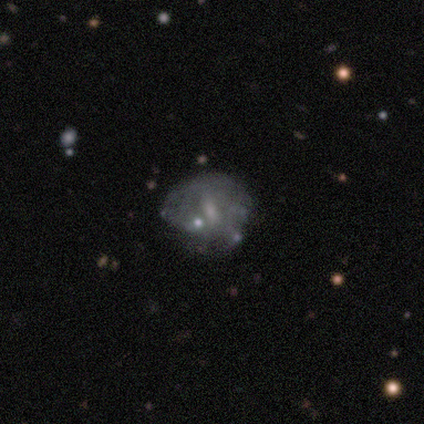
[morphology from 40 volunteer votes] smooth-or-featured: featured or disk: 70% | smooth: 20% | star or artifact: 10%
  disk-edge-on: no: 96% | yes: 4%
    bar: weak: 52% | no: 37% | strong: 11%
    has-spiral-arms: no: 93% | yes: 7%
    bulge-size: none: 44% | small: 37% | moderate: 19% | dominant: 0% | large: 0%
  merging: none: 31% | major disturbance: 22% | minor disturbance: 19% | merger: 8%